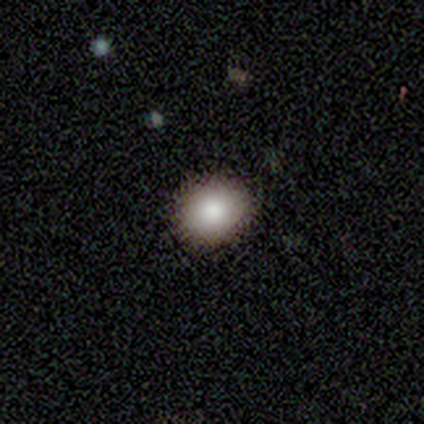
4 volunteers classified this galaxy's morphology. A smooth galaxy with no disk features (75%) that is round (67%).

Vote fractions:
- Smooth or featured? smooth: 75% / star or artifact: 25% / featured or disk: 0%
- How rounded? round: 67% / in between: 33% / cigar-shaped: 0%
- Merging? none: 67% / minor disturbance: 33% / major disturbance: 0% / merger: 0%